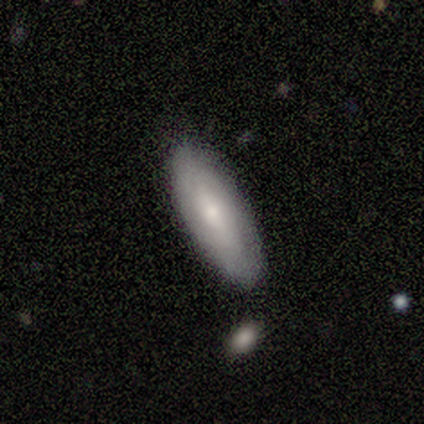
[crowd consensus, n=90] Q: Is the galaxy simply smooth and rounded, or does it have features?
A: smooth — 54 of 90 (60%).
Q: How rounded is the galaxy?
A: in between — 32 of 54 (59%).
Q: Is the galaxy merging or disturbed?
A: none — 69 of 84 (82%).